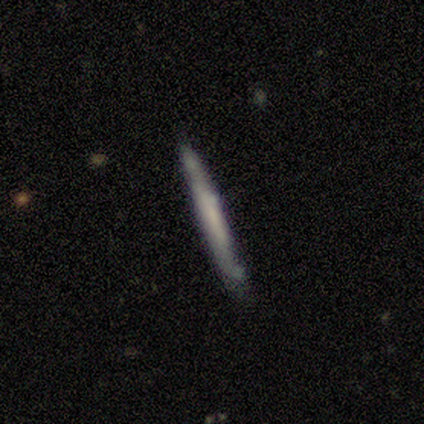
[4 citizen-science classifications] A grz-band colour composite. It shows a smooth galaxy with no disk features (50%, tied with featured or disk) that is in between round and cigar-shaped (50%, tied with cigar-shaped). Merging: none (75%).